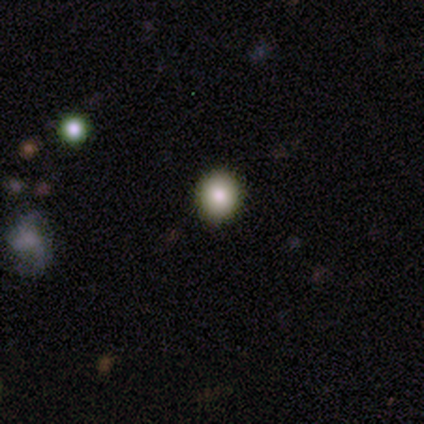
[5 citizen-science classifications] Volunteers were most divided on "smooth or featured": smooth: 60%, featured or disk: 20%, star or artifact: 20%. More confident: how rounded — round (100%); merging — none (100%).